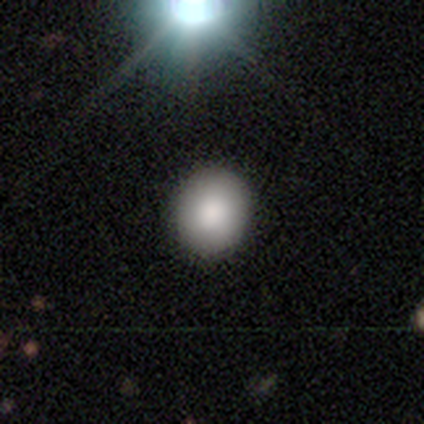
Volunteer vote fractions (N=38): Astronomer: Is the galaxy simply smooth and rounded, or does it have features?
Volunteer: smooth — 92%.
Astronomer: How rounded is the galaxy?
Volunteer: round — 80%.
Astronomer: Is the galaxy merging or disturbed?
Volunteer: none — 63%.